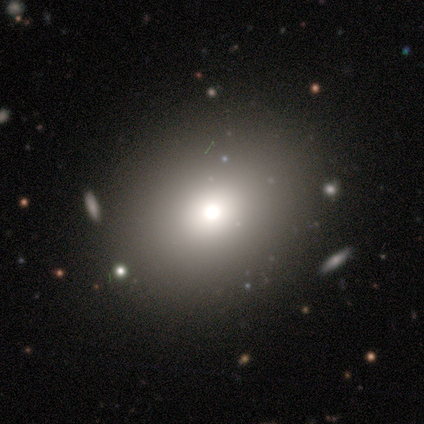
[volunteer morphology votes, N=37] smooth 65%, star or artifact 19%, featured or disk 16%. Down the decision tree: how rounded — round (83%); merging — none (90%).